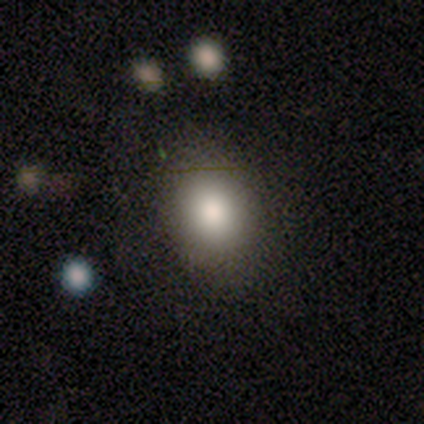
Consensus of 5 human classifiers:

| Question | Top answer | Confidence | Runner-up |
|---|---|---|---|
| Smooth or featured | smooth | 100% | — |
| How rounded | in between | 60% | round (40%) |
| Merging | none | 60% | minor disturbance (40%) |